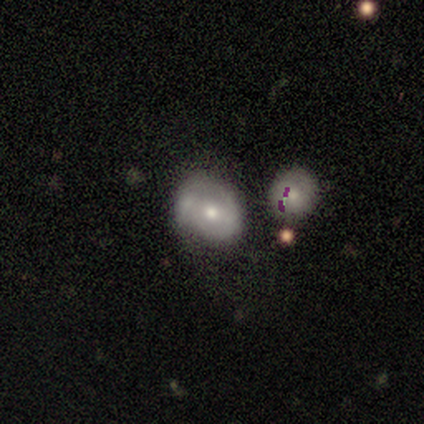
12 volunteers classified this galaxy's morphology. This appears to be a featured or disk galaxy (58%) with no bar (57%), no spiral arms (57%) and a moderate central bulge (43%). Merging: none (45%).